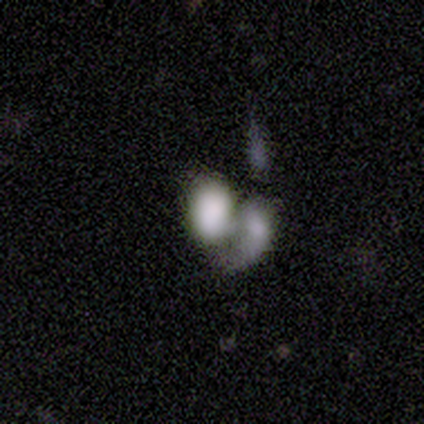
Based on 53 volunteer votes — Smooth or featured? smooth (66%)
How rounded? in between (94%)
Merging? merger (80%)